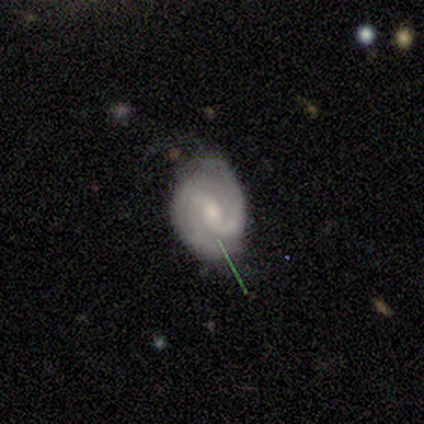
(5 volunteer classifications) featured or disk 100%, smooth 0%, star or artifact 0%. Down the decision tree: edge-on disk — no (100%); bar — weak (40%, tied with no); spiral arms — yes (100%); spiral arm count — 2 (100%); spiral winding — medium (100%); bulge size — moderate (40%, tied with small); merging — none (60%).